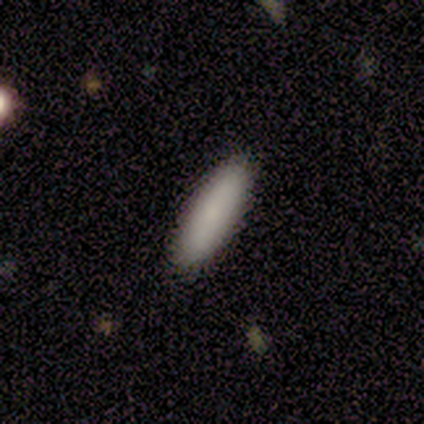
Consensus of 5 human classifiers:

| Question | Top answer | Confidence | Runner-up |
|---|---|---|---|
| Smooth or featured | smooth | 80% | featured or disk (20%) |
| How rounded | cigar-shaped | 75% | in between (25%) |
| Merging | none | 100% | — |